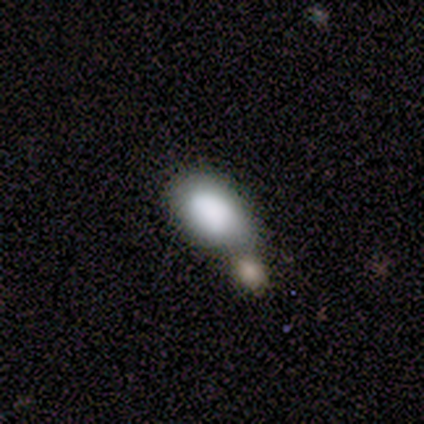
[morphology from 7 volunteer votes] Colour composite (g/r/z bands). It shows a smooth galaxy with no disk features (57%) that is in between round and cigar-shaped (75%). Merging: merger (60%).